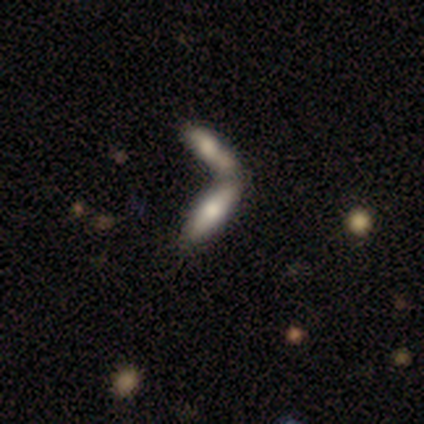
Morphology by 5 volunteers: smooth-or-featured: smooth: 60% | featured or disk: 20% | star or artifact: 20%
  how-rounded: in between: 67% | cigar-shaped: 33% | round: 0%
  merging: merger: 75% | none: 25% | minor disturbance: 0% | major disturbance: 0%